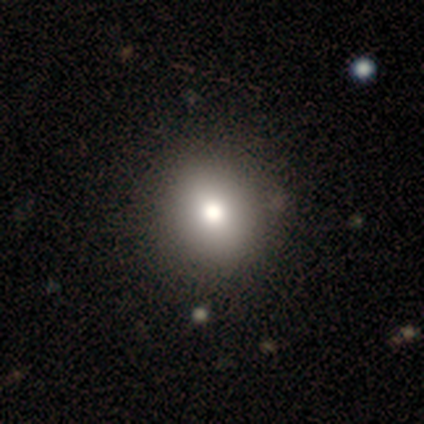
Overall: smooth (50%, tied with star or artifact). How rounded: round (100%). Merging: none (100%).